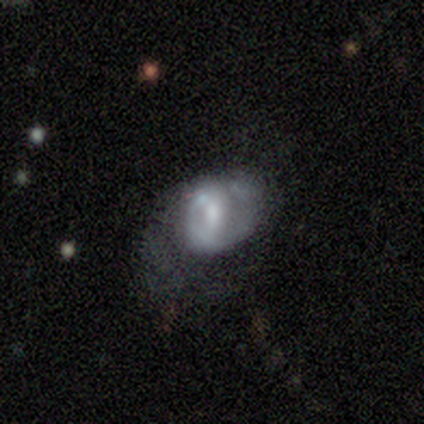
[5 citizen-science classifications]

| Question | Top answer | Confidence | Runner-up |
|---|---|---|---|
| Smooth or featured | featured or disk | 80% | smooth (20%) |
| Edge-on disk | no | 100% | — |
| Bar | weak | 50% | tied: no (50%) |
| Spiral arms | yes | 50% | tied: no (50%) |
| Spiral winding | tight | 50% | tied: medium (50%) |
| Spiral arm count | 1 | 50% | tied: 2 (50%) |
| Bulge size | large | 50% | moderate (25%) |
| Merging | major disturbance | 80% | none (20%) |